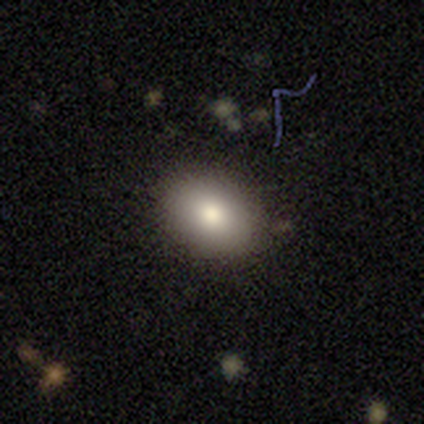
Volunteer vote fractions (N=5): Q: Smooth or featured?
A: smooth (40%); tied with: featured or disk (40%)
Q: How rounded?
A: round (50%); tied with: in between (50%)
Q: Merging?
A: none (100%)